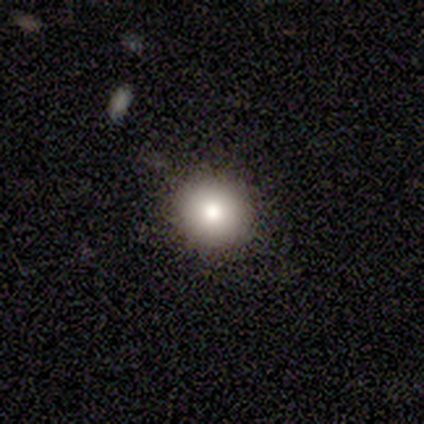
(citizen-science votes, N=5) Volunteers were most divided on "smooth or featured": smooth: 60%, featured or disk: 40%, star or artifact: 0%. More confident: merging — none (80%); how rounded — round (67%).